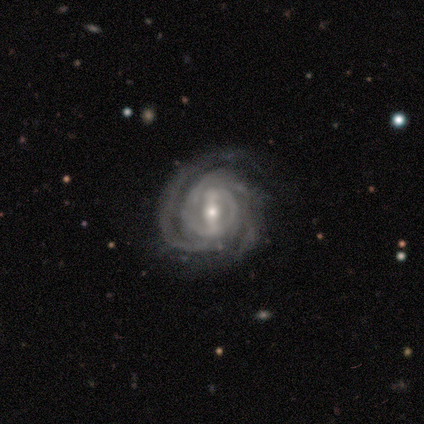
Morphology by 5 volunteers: smooth-or-featured: featured or disk: 100% | smooth: 0% | star or artifact: 0%
  disk-edge-on: no: 100% | yes: 0%
    bar: strong: 60% | weak: 40% | no: 0%
    has-spiral-arms: yes: 100% | no: 0%
      spiral-winding: tight: 100% | medium: 0% | loose: 0%
      spiral-arm-count: can't tell: 60% | 3: 40% | 1: 0% | 2: 0% | 4: 0% | more than 4: 0%
    bulge-size: moderate: 60% | small: 40% | dominant: 0% | large: 0% | none: 0%
  merging: none: 60% | minor disturbance: 20% | major disturbance: 20% | merger: 0%